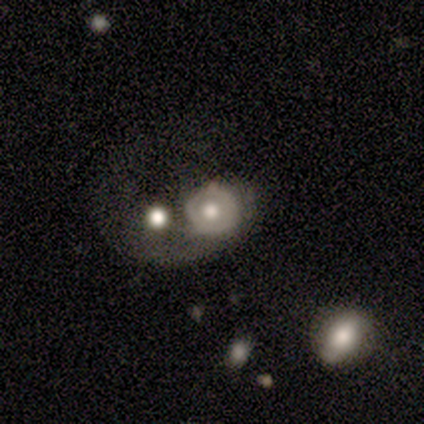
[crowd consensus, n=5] smooth-or-featured: featured or disk: 60% | smooth: 40% | star or artifact: 0%
  disk-edge-on: no: 100% | yes: 0%
    bar: no: 100% | strong: 0% | weak: 0%
    has-spiral-arms: no: 100% | yes: 0%
    bulge-size: large: 67% | small: 33% | dominant: 0% | moderate: 0% | none: 0%
  merging: major disturbance: 40% (tied) | merger: 40% (tied) | none: 20% | minor disturbance: 0%